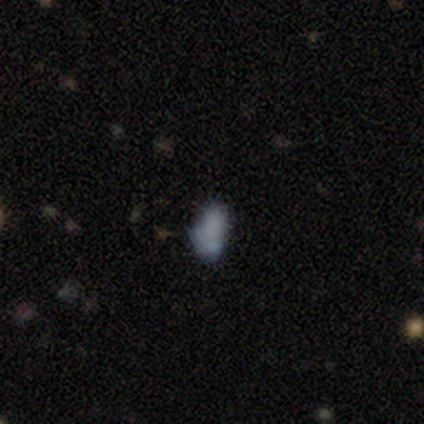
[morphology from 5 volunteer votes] smooth 80%, featured or disk 20%, star or artifact 0%. Down the decision tree: how rounded — in between (75%); merging — none (60%).